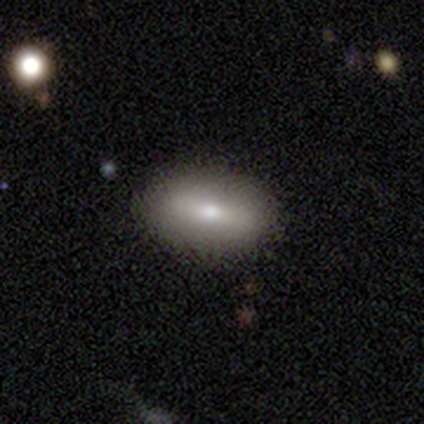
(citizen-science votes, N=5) This appears to be a smooth galaxy with no disk features (80%) that is in between round and cigar-shaped (75%). Merging: none (100%).